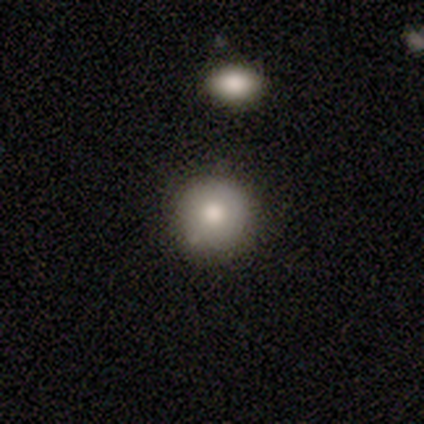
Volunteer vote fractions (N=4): Morphology: type=smooth (100%); roundness=round (100%); merging=none (75%).